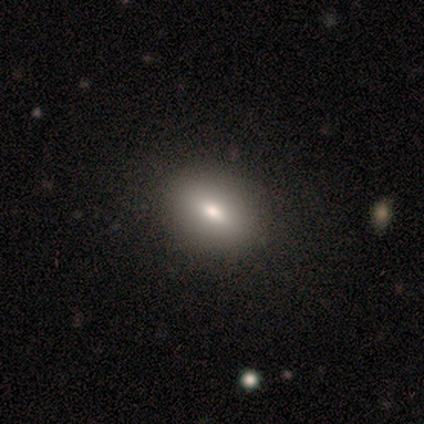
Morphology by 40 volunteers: This is clearly a smooth galaxy (85%). How rounded: likely in between (76%). Merging: likely none (67%).